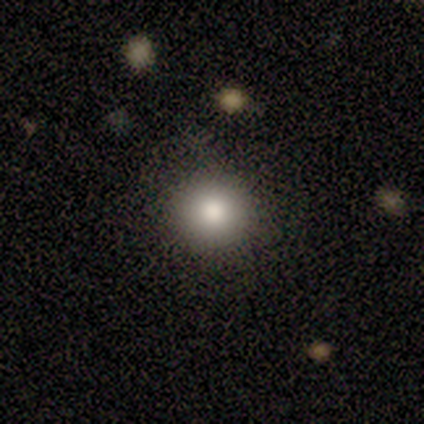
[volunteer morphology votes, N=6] Q: Smooth or featured?
A: star or artifact (50%); runner-up: smooth (33%)